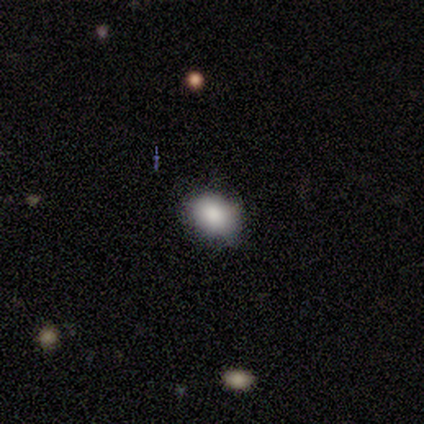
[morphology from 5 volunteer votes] Smooth or featured?
  - smooth: 60% *
  - star or artifact: 40%
  - featured or disk: 0%
How rounded?
  - round: 67% *
  - in between: 33%
  - cigar-shaped: 0%
Merging?
  - none: 100% *
  - minor disturbance: 0%
  - major disturbance: 0%
  - merger: 0%